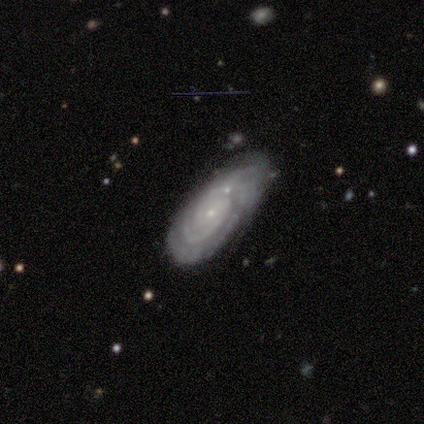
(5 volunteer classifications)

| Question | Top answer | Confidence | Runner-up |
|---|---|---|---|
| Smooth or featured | featured or disk | 60% | star or artifact (40%) |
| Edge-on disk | no | 100% | — |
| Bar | no | 100% | — |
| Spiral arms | yes | 100% | — |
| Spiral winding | tight | 100% | — |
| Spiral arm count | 2 | 67% | 3 (33%) |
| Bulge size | small | 100% | — |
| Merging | none | 67% | minor disturbance (33%) |